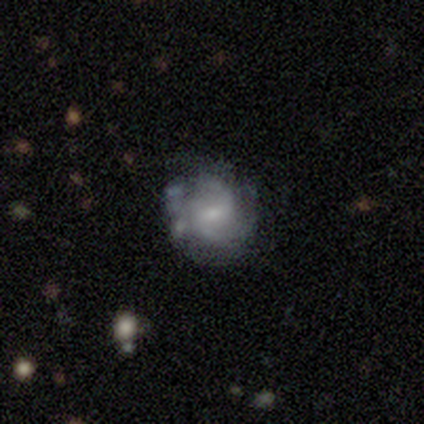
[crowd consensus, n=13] Smooth or featured? 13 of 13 (100%) said featured or disk. Edge-on disk? 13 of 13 (100%) said no. Bar? 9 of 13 (69%) said weak. Spiral arms? 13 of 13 (100%) said yes. Spiral winding? 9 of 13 (69%) said medium. Spiral arm count? 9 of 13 (69%) said 2. Bulge size? 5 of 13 (38%, tied with small) said moderate. Merging? 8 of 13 (62%) said none.